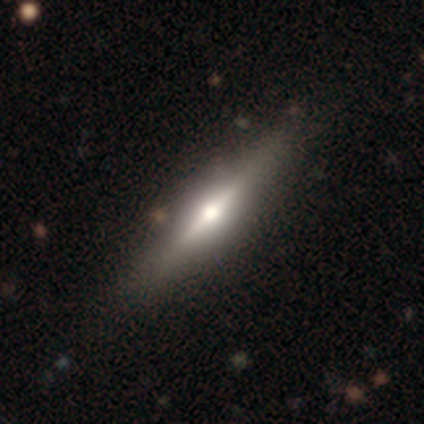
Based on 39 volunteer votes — smooth-or-featured: featured or disk: 85% | smooth: 15% | star or artifact: 0%
  disk-edge-on: yes: 88% | no: 12%
    edge-on-bulge: rounded: 90% | none: 7% | boxy: 3%
  merging: none: 82% | major disturbance: 8% | minor disturbance: 5% | merger: 5%